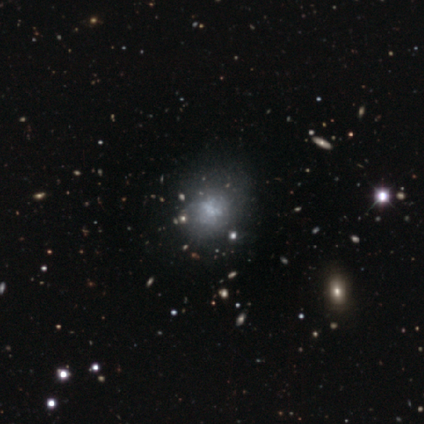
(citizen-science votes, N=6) Smooth or featured?
  - star or artifact: 50% *
  - smooth: 33%
  - featured or disk: 17%